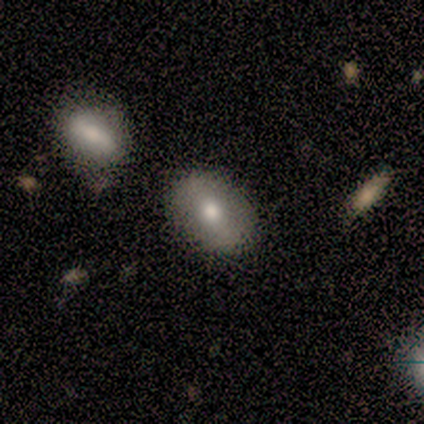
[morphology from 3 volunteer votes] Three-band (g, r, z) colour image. It shows a smooth galaxy with no disk features (100%) that is in between round and cigar-shaped (67%). Merging: none (67%).